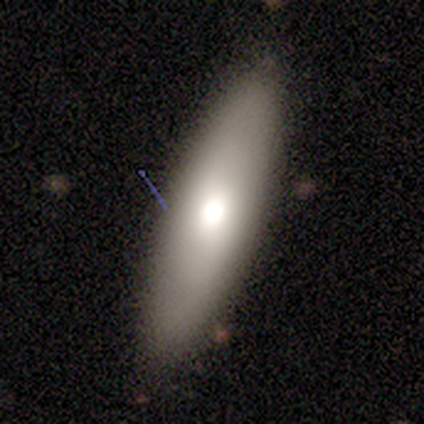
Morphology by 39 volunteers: Smooth or featured: smooth — 69% (featured or disk — 26%)
How rounded: cigar-shaped — 56% (in between — 44%)
Merging: none — 81% (minor disturbance — 16%)